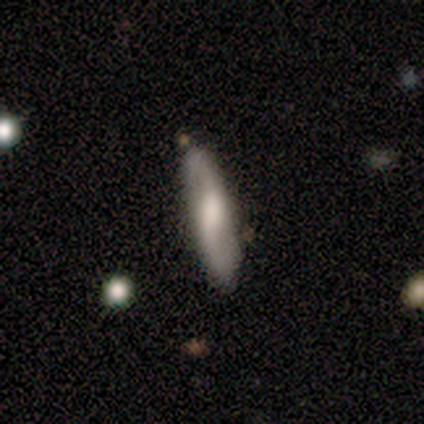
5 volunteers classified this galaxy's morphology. featured or disk 60%, smooth 40%, star or artifact 0%. Down the decision tree: edge-on disk — no (67%); bar — strong (50%, tied with weak); spiral arms — yes (100%); spiral arm count — 2 (100%); spiral winding — medium (50%, tied with loose); bulge size — moderate (50%, tied with small); merging — none (60%).